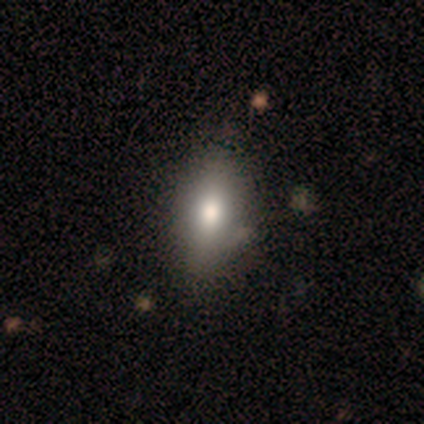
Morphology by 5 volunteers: type=smooth (80%); roundness=in between (100%); merging=none (75%).